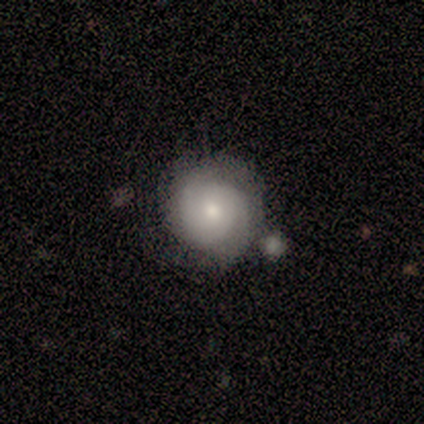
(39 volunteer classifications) This appears to be a featured or disk galaxy (56%) with no bar (73%), tight (88%) spiral arms (73%) and a small central bulge (64%). Merging: none (58%).